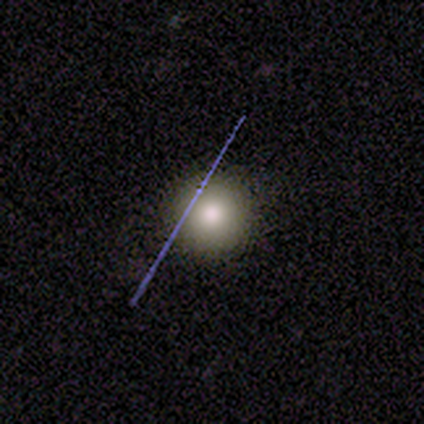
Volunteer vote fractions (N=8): Smooth or featured? 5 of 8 (62%) said smooth. How rounded? 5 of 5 (100%) said round. Merging? 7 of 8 (88%) said none.